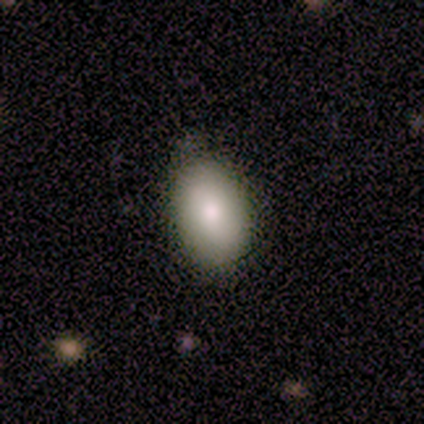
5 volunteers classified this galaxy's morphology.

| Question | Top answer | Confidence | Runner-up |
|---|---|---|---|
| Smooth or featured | smooth | 80% | featured or disk (20%) |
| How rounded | in between | 100% | — |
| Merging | minor disturbance | 60% | none (40%) |